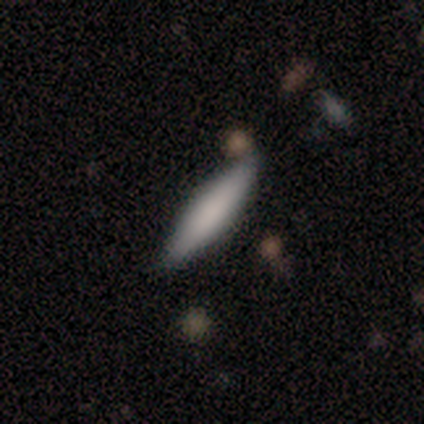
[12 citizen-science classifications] smooth-or-featured: smooth: 75% | featured or disk: 17% | star or artifact: 8%
  how-rounded: in between: 67% | cigar-shaped: 33% | round: 0%
  merging: none: 91% | minor disturbance: 9% | major disturbance: 0% | merger: 0%